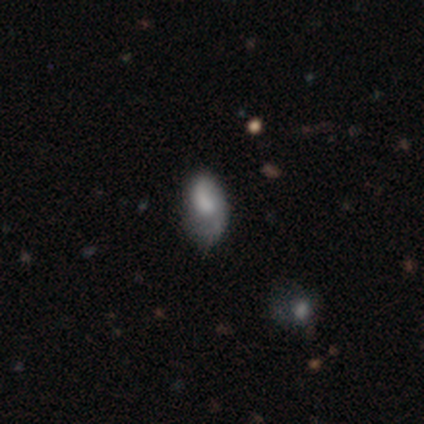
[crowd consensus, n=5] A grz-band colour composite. It shows a featured or disk galaxy (60%) with a weak bar (100%), 1 (67%) tight (33%, tied with medium and loose) spiral arms (100%) and a small central bulge (67%). Merging: minor disturbance (60%).